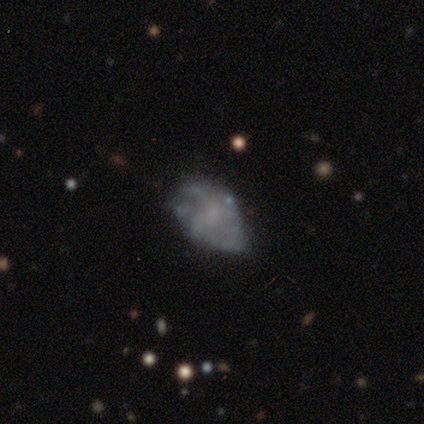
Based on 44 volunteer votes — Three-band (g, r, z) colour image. It shows a featured or disk galaxy (50%) with no bar (86%), tight (36%, tied with medium) spiral arms (64%) and no central bulge (55%). Merging: none (51%).